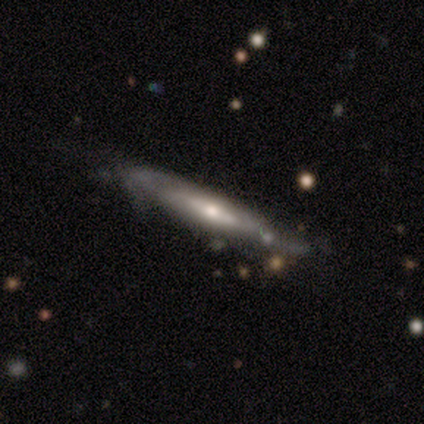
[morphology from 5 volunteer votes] Overall: featured or disk (60%; smooth 40%). Edge-on disk: yes (67%; no 33%). Edge-on bulge: boxy (50%, tied with rounded). Merging: minor disturbance (60%; none 20%).